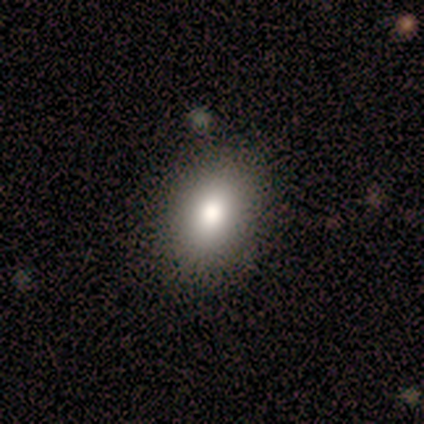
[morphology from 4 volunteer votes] Volunteers were most divided on "how rounded": in between: 67%, round: 33%, cigar-shaped: 0%. More confident: merging — none (100%); smooth or featured — smooth (75%).